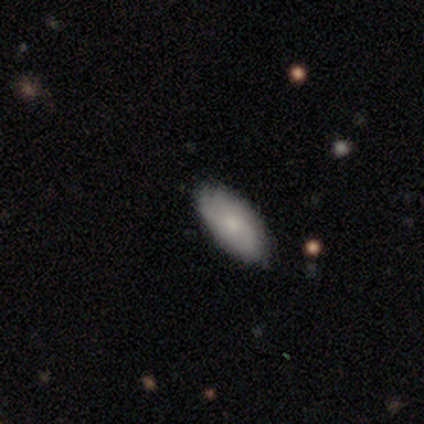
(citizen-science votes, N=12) smooth-or-featured: smooth: 75% | star or artifact: 17% | featured or disk: 8%
  how-rounded: in between: 100% | round: 0% | cigar-shaped: 0%
  merging: none: 80% | minor disturbance: 20% | major disturbance: 0% | merger: 0%